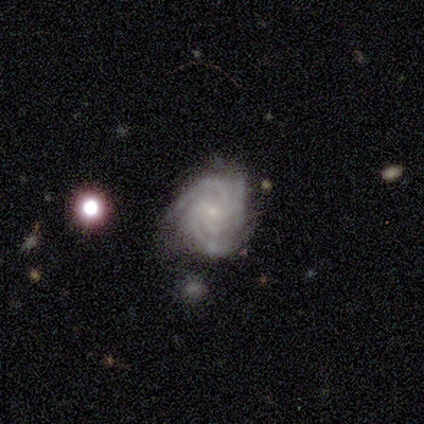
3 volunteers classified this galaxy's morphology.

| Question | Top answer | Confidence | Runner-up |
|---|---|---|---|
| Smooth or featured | featured or disk | 100% | — |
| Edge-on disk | no | 100% | — |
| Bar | no | 67% | weak (33%) |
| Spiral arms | yes | 100% | — |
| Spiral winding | tight | 33% | tied: medium (33%), loose (33%) |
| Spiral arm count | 3 | 67% | 4 (33%) |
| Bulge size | small | 100% | — |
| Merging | none | 67% | minor disturbance (33%) |